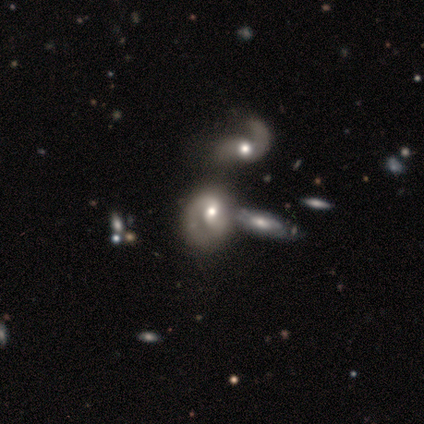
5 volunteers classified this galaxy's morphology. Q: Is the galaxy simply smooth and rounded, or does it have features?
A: smooth — 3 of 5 (60%).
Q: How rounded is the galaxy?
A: in between — 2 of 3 (67%).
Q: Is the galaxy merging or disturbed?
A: none — 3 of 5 (60%).